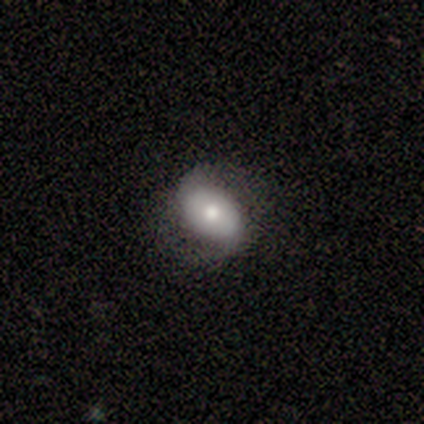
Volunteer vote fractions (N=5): Overall: smooth (60%; featured or disk 40%). How rounded: in between (67%; round 33%). Merging: none (80%).